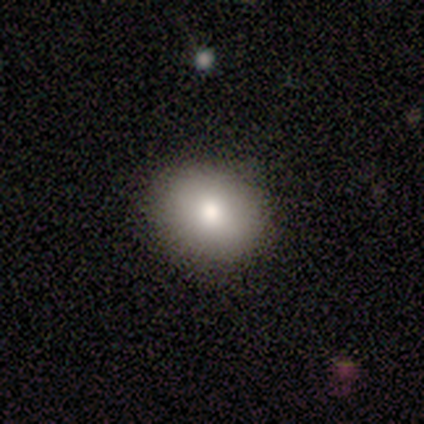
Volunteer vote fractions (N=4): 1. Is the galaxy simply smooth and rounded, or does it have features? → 100% smooth, 0% featured or disk, 0% star or artifact.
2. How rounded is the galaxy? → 50% round (tied), 50% in between (tied), 0% cigar-shaped.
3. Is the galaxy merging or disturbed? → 75% none, 25% minor disturbance, 0% major disturbance, 0% merger.